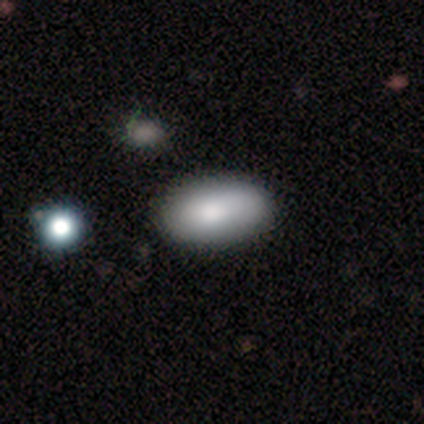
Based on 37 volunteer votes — A smooth galaxy with no disk features (89%) that is in between round and cigar-shaped (94%).

Vote fractions:
- Smooth or featured? smooth: 89% / featured or disk: 11% / star or artifact: 0%
- How rounded? in between: 94% / round: 6% / cigar-shaped: 0%
- Merging? none: 62% / minor disturbance: 5% / merger: 5% / major disturbance: 0%